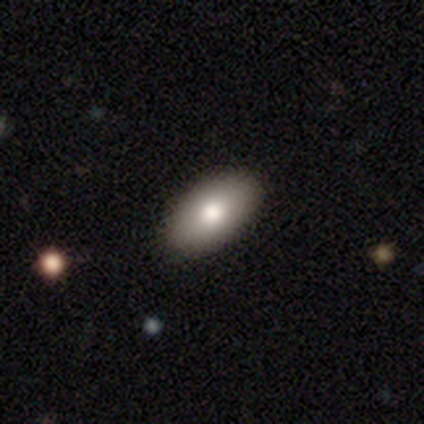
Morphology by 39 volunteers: Smooth or featured? smooth (77%)
How rounded? in between (93%)
Merging? none (97%)